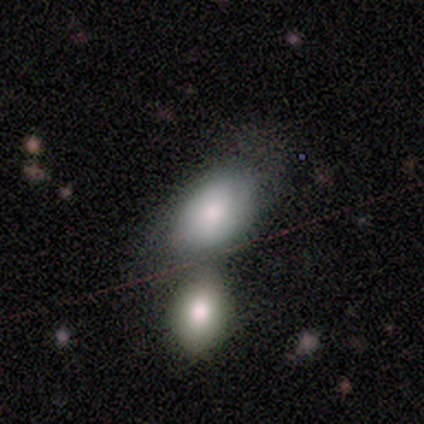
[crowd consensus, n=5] Smooth or featured?
  - smooth: 80% *
  - featured or disk: 20%
  - star or artifact: 0%
How rounded?
  - in between: 75% *
  - round: 25%
  - cigar-shaped: 0%
Merging?
  - none: 40% * (tied)
  - merger: 40% * (tied)
  - minor disturbance: 20%
  - major disturbance: 0%